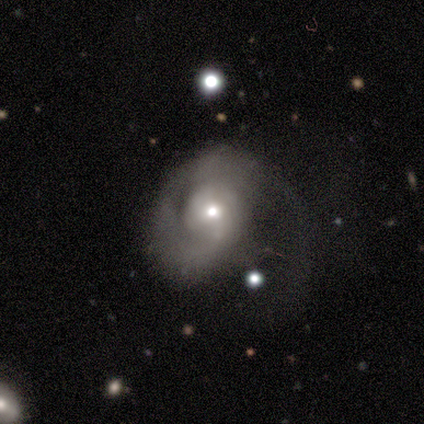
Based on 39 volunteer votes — A featured or disk galaxy (72%) with no bar (59%), 2 (43%) loose (43%) spiral arms (78%) and a moderate central bulge (74%).

Vote fractions:
- Smooth or featured? featured or disk: 72% / smooth: 28% / star or artifact: 0%
- Edge-on disk? no: 96% / yes: 4%
- Bar? no: 59% / weak: 33% / strong: 7%
- Spiral arms? yes: 78% / no: 22%
- Spiral winding? loose: 43% / tight: 29% / medium: 29%
- Spiral arm count? 2: 43% / 1: 38% / can't tell: 19% / 3: 0% / 4: 0% / more than 4: 0%
- Bulge size? moderate: 74% / small: 22% / large: 4% / dominant: 0% / none: 0%
- Merging? major disturbance: 72% / none: 18% / minor disturbance: 10% / merger: 0%